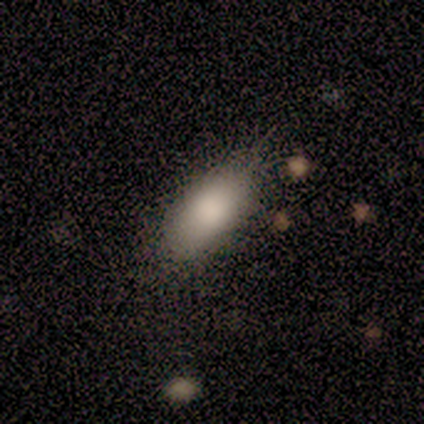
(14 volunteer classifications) smooth 79%, star or artifact 14%, featured or disk 7%. Down the decision tree: how rounded — in between (82%); merging — none (92%).